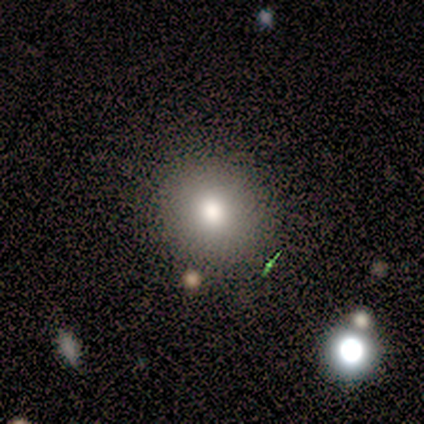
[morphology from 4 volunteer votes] Smooth or featured? 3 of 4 (75%) said smooth. How rounded? 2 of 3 (67%) said round. Merging? 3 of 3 (100%) said none.